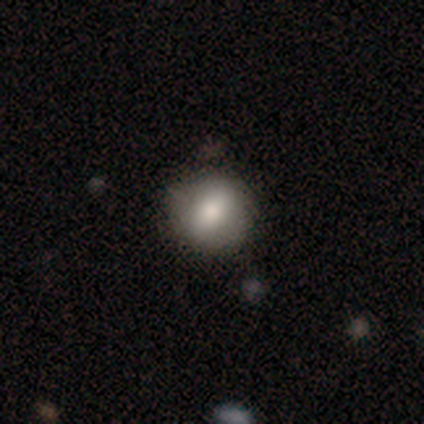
Overall: smooth (89%). How rounded: round (88%). Merging: none (89%).